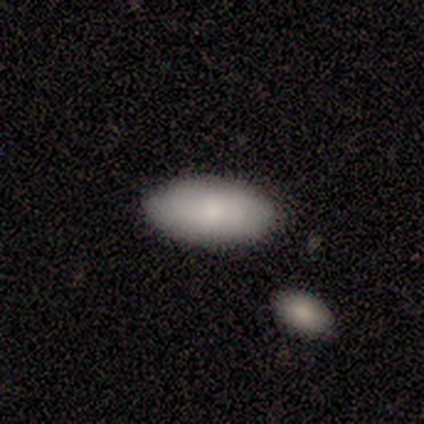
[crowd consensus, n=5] Morphology: type=smooth (100%); roundness=in between (100%); merging=none (100%).